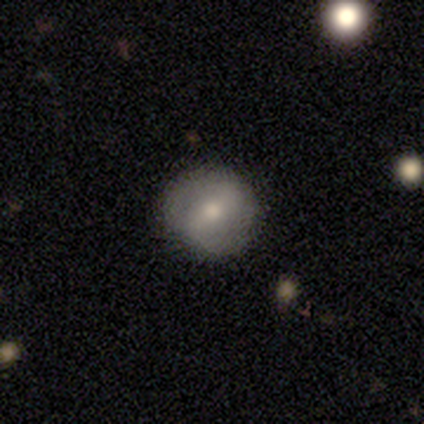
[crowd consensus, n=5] Smooth or featured? featured or disk (60%)
Edge-on disk? no (100%)
Bar? strong (100%)
Spiral arms? yes (67%)
Spiral winding? tight (50%, tied with medium)
Spiral arm count? 2 (100%)
Bulge size? moderate (100%)
Merging? none (75%)